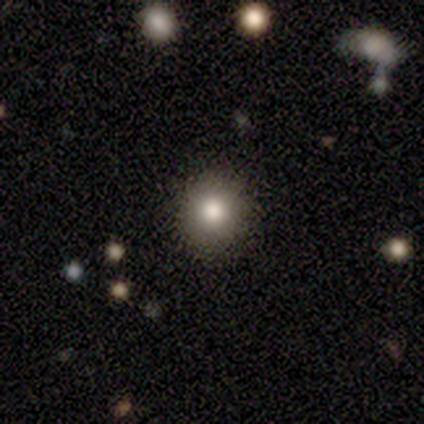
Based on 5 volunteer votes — smooth-or-featured: smooth: 100% | featured or disk: 0% | star or artifact: 0%
  how-rounded: round: 80% | in between: 20% | cigar-shaped: 0%
  merging: none: 80% | minor disturbance: 20% | major disturbance: 0% | merger: 0%